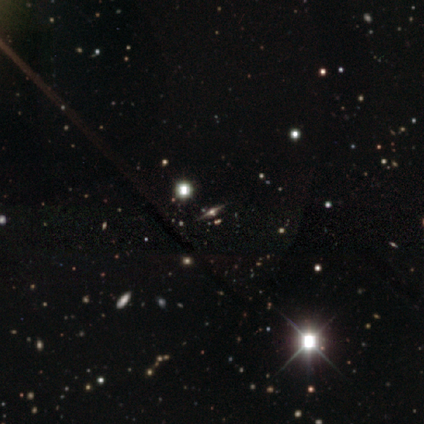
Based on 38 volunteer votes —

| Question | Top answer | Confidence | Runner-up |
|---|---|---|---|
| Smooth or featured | star or artifact | 63% | featured or disk (34%) |